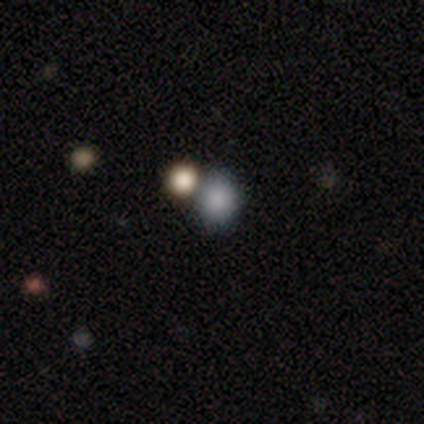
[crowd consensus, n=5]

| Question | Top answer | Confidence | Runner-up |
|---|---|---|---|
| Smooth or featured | smooth | 100% | — |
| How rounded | round | 80% | in between (20%) |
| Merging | none | 80% | minor disturbance (20%) |